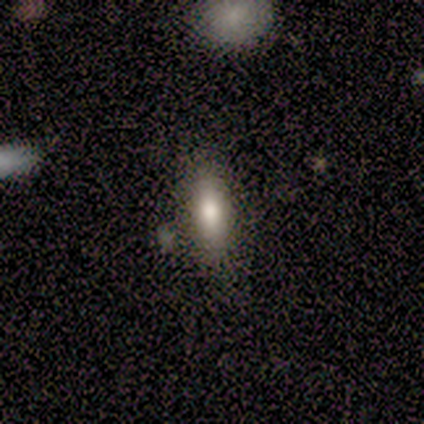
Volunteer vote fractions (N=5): smooth_or_featured: smooth (p=1.00)
how_rounded: in between (p=0.60) [alt: cigar-shaped p=0.40]
merging: none (p=1.00)